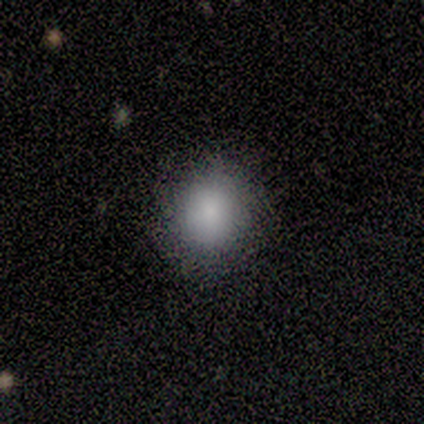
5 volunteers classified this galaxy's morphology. This is clearly a smooth galaxy (100%). How rounded: likely round (60%). Merging: clearly none (100%).